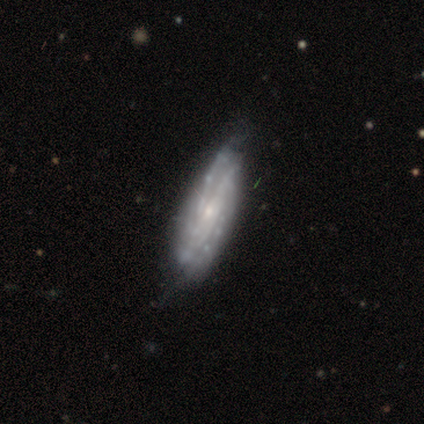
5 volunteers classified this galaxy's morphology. Smooth or featured: featured or disk — 100%
Edge-on disk: no — 80% (yes — 20%)
Bar: weak — 50% (tied with no — 50%)
Spiral arms: yes — 100%
Spiral winding: tight — 75% (medium — 25%)
Spiral arm count: can't tell — 75% (4 — 25%)
Bulge size: small — 50% (moderate — 25%)
Merging: none — 100%